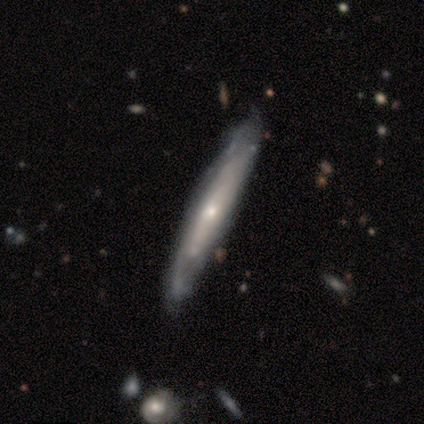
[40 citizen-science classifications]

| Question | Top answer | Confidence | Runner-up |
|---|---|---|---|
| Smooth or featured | featured or disk | 72% | smooth (25%) |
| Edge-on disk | yes | 59% | no (41%) |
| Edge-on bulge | rounded | 59% | none (41%) |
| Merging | none | 64% | minor disturbance (13%) |